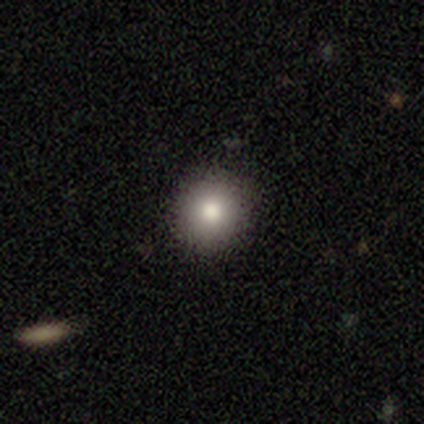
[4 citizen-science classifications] smooth_or_featured: smooth (p=0.75) [alt: featured or disk p=0.25]
how_rounded: round (p=1.00)
merging: none (p=1.00)